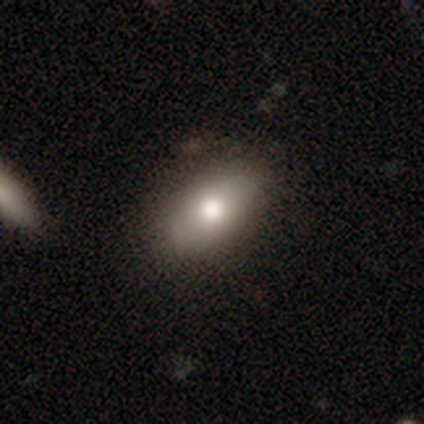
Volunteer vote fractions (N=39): Smooth or featured? 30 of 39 (77%) said smooth. How rounded? 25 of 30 (83%) said in between. Merging? 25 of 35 (71%) said none.